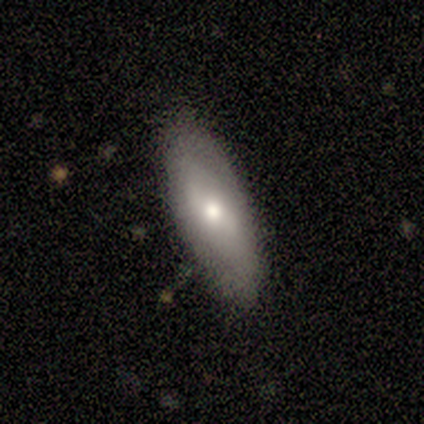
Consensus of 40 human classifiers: Smooth or featured?
  - smooth: 50% *
  - featured or disk: 40%
  - star or artifact: 10%
How rounded?
  - in between: 80% *
  - cigar-shaped: 20%
  - round: 0%
Merging?
  - none: 86% *
  - minor disturbance: 11%
  - major disturbance: 3%
  - merger: 0%